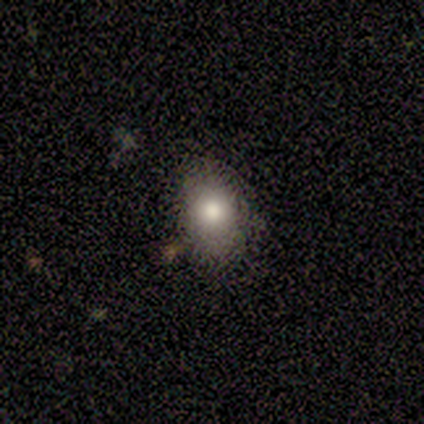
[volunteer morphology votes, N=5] type=smooth (80%); roundness=round (75%); merging=none (100%).